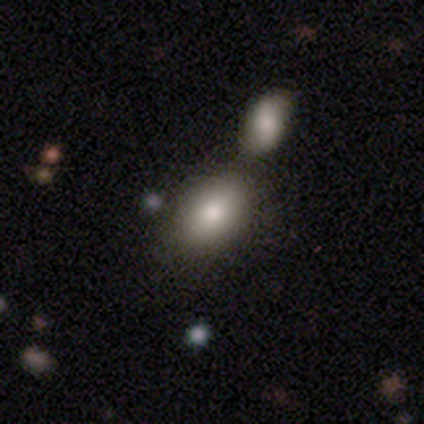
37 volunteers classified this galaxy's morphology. A smooth galaxy with no disk features (92%) that is in between round and cigar-shaped (82%).

Vote fractions:
- Smooth or featured? smooth: 92% / star or artifact: 5% / featured or disk: 3%
- How rounded? in between: 82% / round: 18% / cigar-shaped: 0%
- Merging? none: 43% / merger: 37% / minor disturbance: 11% / major disturbance: 3%